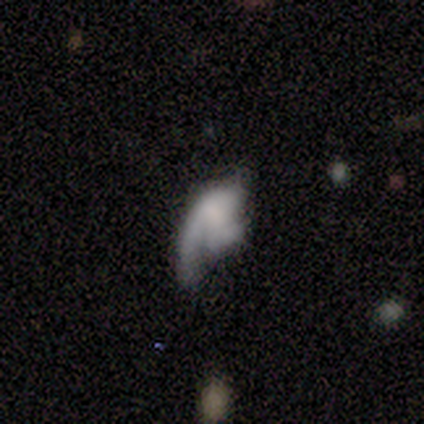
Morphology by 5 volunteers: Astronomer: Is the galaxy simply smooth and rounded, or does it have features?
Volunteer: featured or disk — 60% (runner-up: smooth, 40%).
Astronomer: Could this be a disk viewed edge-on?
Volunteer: no — 100%.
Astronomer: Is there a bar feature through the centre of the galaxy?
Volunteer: no — 100%.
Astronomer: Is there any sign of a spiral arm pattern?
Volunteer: yes — 67%.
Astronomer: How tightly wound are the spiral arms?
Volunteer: loose — 100%.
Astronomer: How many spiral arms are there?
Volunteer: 2 — 50%, tied with 3 at 50%.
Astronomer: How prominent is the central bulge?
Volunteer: large — 33%, tied with moderate and none at 33%.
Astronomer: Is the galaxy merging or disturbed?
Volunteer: major disturbance — 100%.